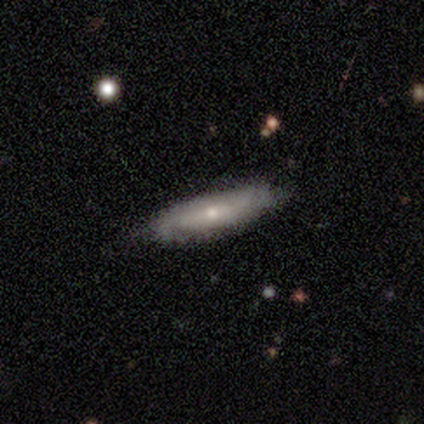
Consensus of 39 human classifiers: smooth_or_featured: smooth (p=0.46) [alt: featured or disk p=0.44]
how_rounded: cigar-shaped (p=0.72) [alt: in between p=0.22]
merging: none (p=0.77) [alt: minor disturbance p=0.14]